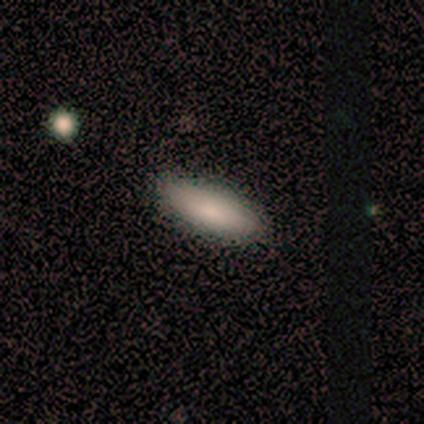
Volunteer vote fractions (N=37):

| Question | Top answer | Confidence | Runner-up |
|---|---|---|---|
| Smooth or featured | smooth | 70% | featured or disk (22%) |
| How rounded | in between | 81% | cigar-shaped (19%) |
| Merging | none | 94% | minor disturbance (6%) |